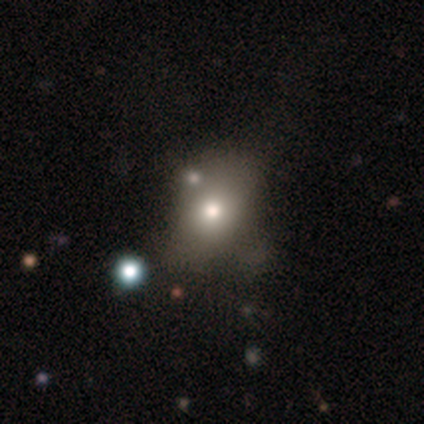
A smooth galaxy with no disk features (60%) that is in between round and cigar-shaped (67%). Merging: none (50%, tied with minor disturbance).